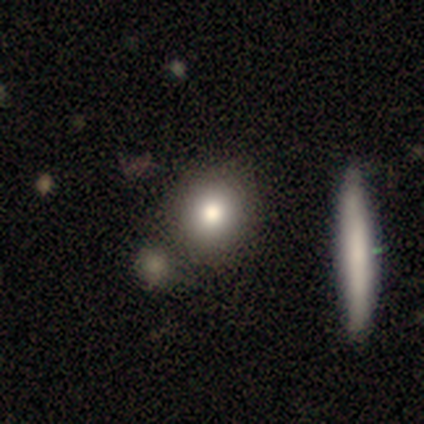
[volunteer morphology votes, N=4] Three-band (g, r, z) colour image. It shows a smooth galaxy with no disk features (75%) that is round (67%). Merging: none (50%, tied with merger).